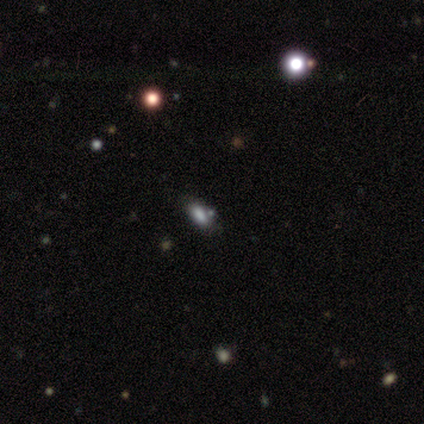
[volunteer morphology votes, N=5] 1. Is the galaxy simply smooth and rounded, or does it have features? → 80% star or artifact, 20% smooth, 0% featured or disk.